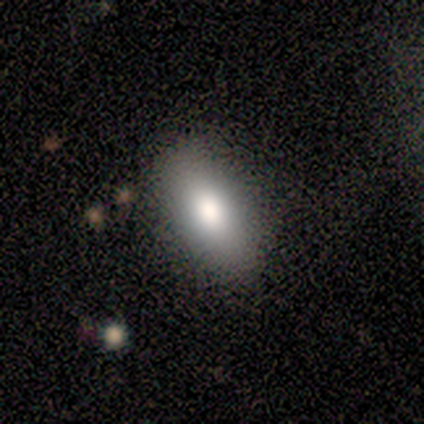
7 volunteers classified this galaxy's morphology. smooth-or-featured: smooth: 86% | star or artifact: 14% | featured or disk: 0%
  how-rounded: in between: 100% | round: 0% | cigar-shaped: 0%
  merging: none: 83% | minor disturbance: 17% | major disturbance: 0% | merger: 0%